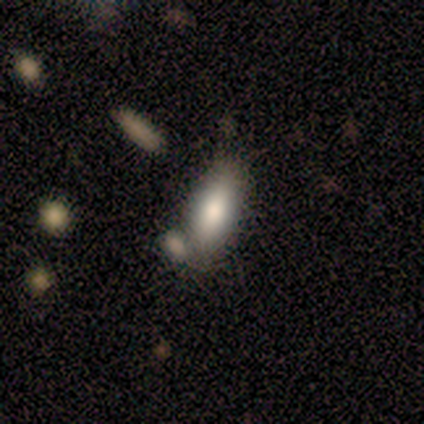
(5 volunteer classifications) This appears to be a smooth galaxy with no disk features (80%) that is in between round and cigar-shaped (75%). Merging: none (80%).